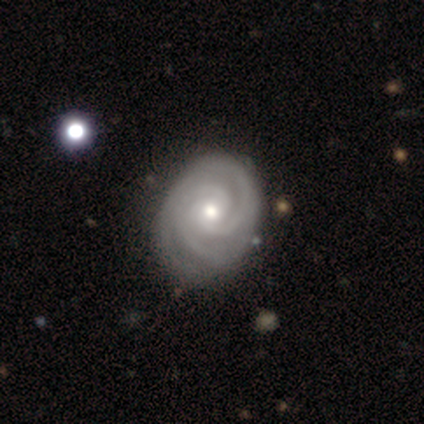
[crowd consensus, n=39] featured or disk 95%, smooth 5%, star or artifact 0%. Down the decision tree: edge-on disk — no (97%); bar — no (67%); spiral arms — yes (100%); spiral arm count — 3 (42%); spiral winding — tight (92%); bulge size — moderate (61%); merging — none (59%).